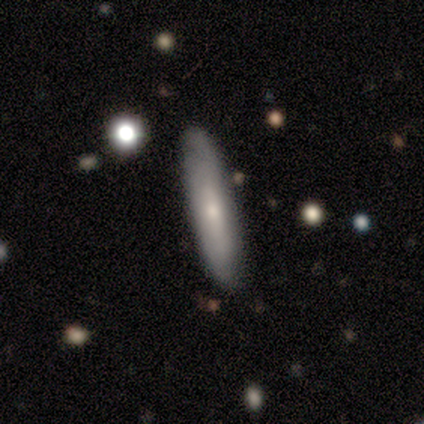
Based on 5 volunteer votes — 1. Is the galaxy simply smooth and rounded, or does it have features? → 80% featured or disk, 20% smooth, 0% star or artifact.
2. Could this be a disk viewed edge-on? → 75% yes, 25% no.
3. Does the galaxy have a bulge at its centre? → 100% rounded, 0% boxy, 0% none.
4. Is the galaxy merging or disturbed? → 80% none, 20% minor disturbance, 0% major disturbance, 0% merger.